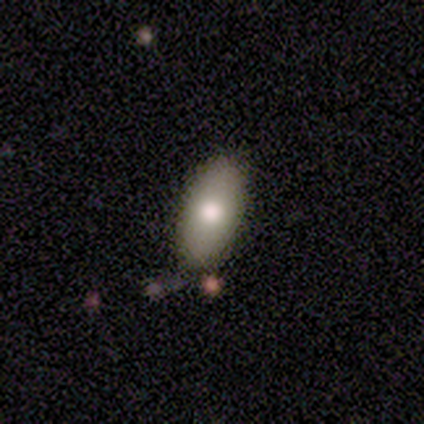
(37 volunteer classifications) Q: Smooth or featured?
A: smooth (84%); runner-up: featured or disk (14%)
Q: How rounded?
A: in between (84%); runner-up: cigar-shaped (13%)
Q: Merging?
A: none (78%); runner-up: minor disturbance (11%)